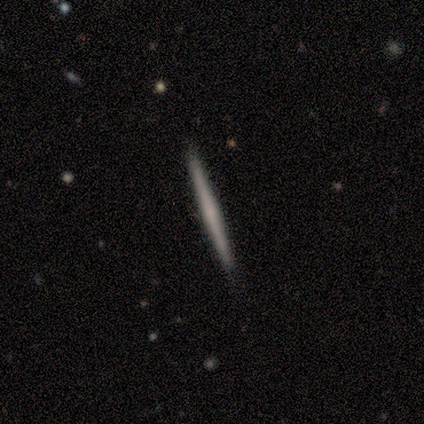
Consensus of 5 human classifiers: Morphology: type=smooth (60%); roundness=cigar-shaped (100%); merging=none (60%).